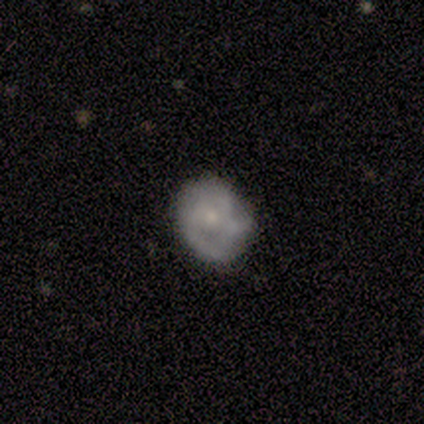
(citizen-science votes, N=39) Overall: featured or disk (51%; smooth 38%). Edge-on disk: no (90%). Bar: no (89%). Spiral arms: yes (78%). Spiral arm count: can't tell (43%; 3 36%). Spiral winding: medium (43%; tight 29%). Bulge size: small (72%). Merging: none (51%; minor disturbance 29%).